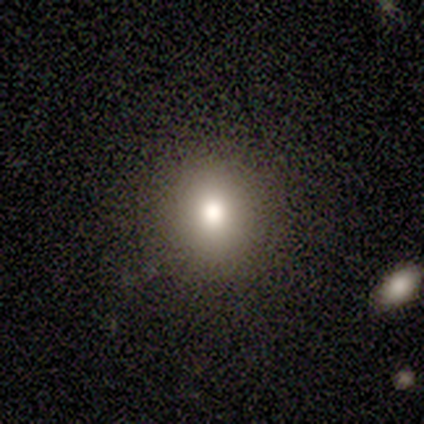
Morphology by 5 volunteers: Smooth or featured? smooth (60%)
How rounded? round (100%)
Merging? none (100%)